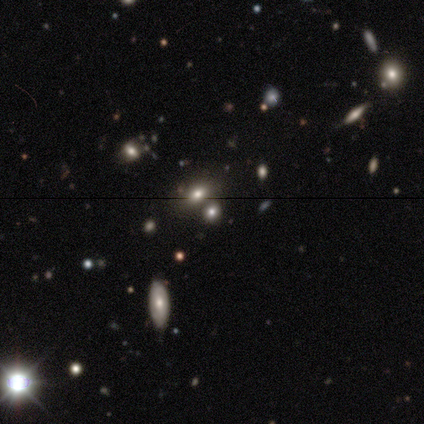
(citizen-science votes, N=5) A smooth galaxy with no disk features (60%) that is round (67%). Merging: none (67%).